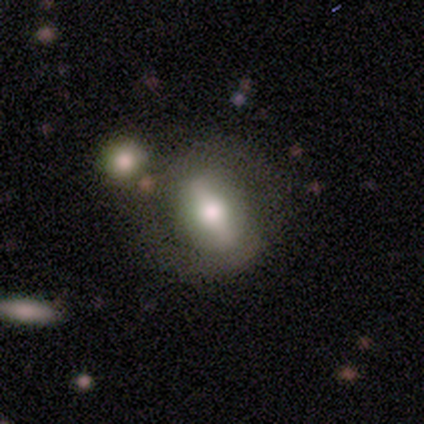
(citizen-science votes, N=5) Smooth or featured? featured or disk (60%)
Edge-on disk? no (67%)
Bar? strong (50%, tied with weak)
Spiral arms? no (100%)
Bulge size? large (50%, tied with moderate)
Merging? none (75%)